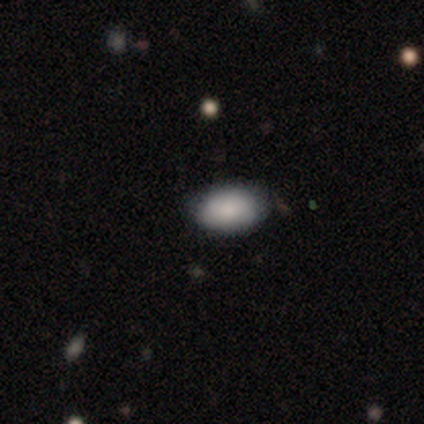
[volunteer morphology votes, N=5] Volunteers were most divided on "merging": none: 80%, minor disturbance: 20%, major disturbance: 0%, merger: 0%. More confident: smooth or featured — smooth (100%); how rounded — in between (100%).